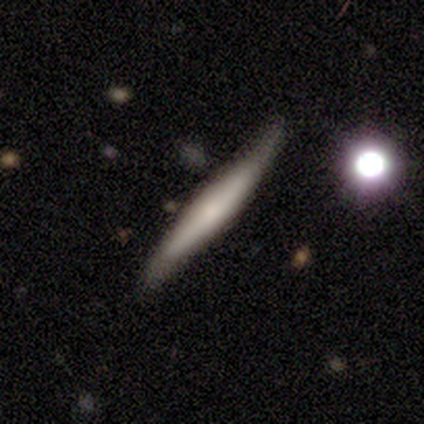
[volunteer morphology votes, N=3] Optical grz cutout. It shows a featured or disk galaxy (67%) viewed edge-on (50%, tied with no) with a rounded central bulge (100%). Merging: minor disturbance (50%, tied with major disturbance).